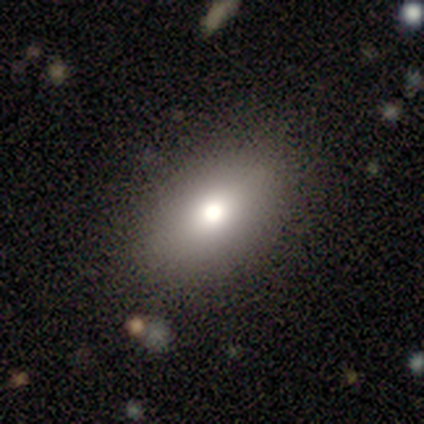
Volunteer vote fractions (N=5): Smooth or featured?
  - smooth: 100% *
  - featured or disk: 0%
  - star or artifact: 0%
How rounded?
  - in between: 100% *
  - round: 0%
  - cigar-shaped: 0%
Merging?
  - none: 60% *
  - minor disturbance: 40%
  - major disturbance: 0%
  - merger: 0%